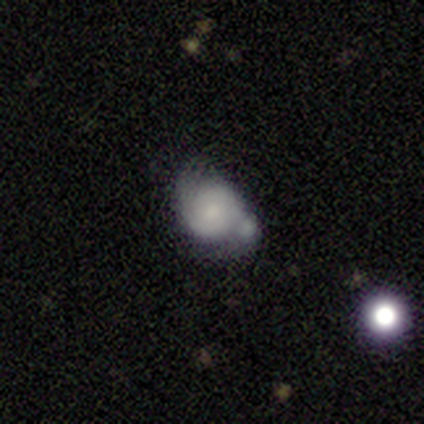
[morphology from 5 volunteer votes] Smooth or featured?
  - featured or disk: 40% * (tied)
  - star or artifact: 40% * (tied)
  - smooth: 20%
Edge-on disk?
  - no: 100% *
  - yes: 0%
Bar?
  - no: 100% *
  - strong: 0%
  - weak: 0%
Spiral arms?
  - yes: 100% *
  - no: 0%
Spiral winding?
  - tight: 100% *
  - medium: 0%
  - loose: 0%
Spiral arm count?
  - 2: 50% * (tied)
  - can't tell: 50% * (tied)
  - 1: 0%
  - 3: 0%
  - 4: 0%
  - more than 4: 0%
Bulge size?
  - small: 50% * (tied)
  - none: 50% * (tied)
  - dominant: 0%
  - large: 0%
  - moderate: 0%
Merging?
  - none: 33% * (tied)
  - minor disturbance: 33% * (tied)
  - major disturbance: 33% * (tied)
  - merger: 0%